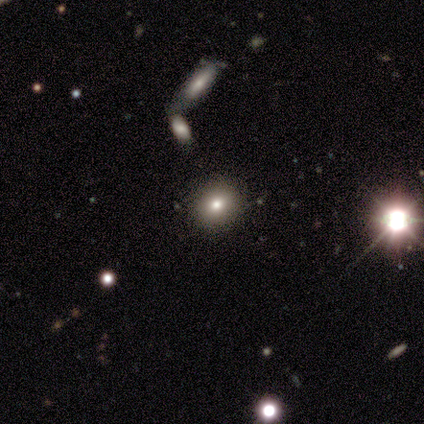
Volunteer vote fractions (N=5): A smooth galaxy with no disk features (100%) that is round (100%). Merging: none (100%).